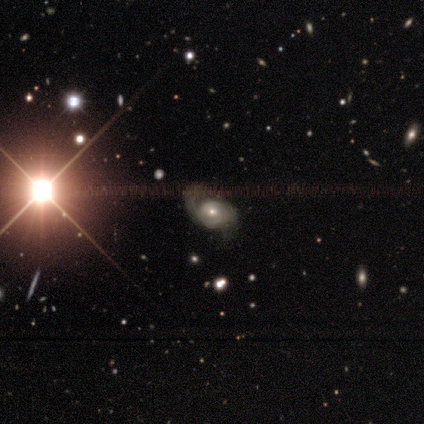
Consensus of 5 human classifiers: Overall: featured or disk (40%, tied with star or artifact). Edge-on disk: no (100%). Bar: no (100%). Spiral arms: yes (50%, tied with no). Spiral arm count: 2 (100%). Spiral winding: loose (100%). Bulge size: moderate (50%, tied with small). Merging: none (67%; major disturbance 33%).